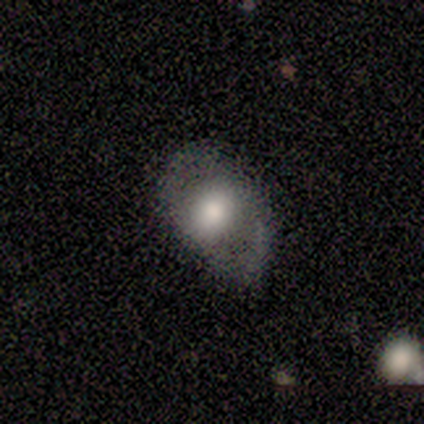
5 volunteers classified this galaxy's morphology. Smooth or featured: smooth — 60% (featured or disk — 40%)
How rounded: in between — 100%
Merging: none — 40% (tied with minor disturbance — 40%)